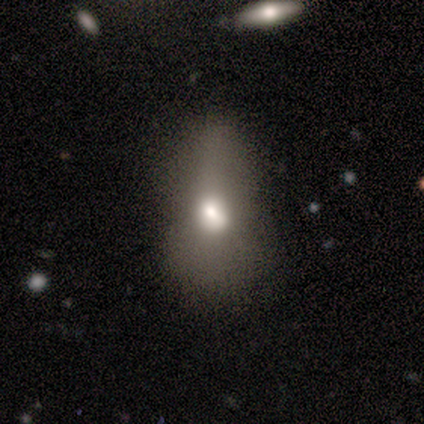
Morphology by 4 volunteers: This appears to be a featured or disk galaxy (75%) with no bar (100%), no spiral arms (100%) and a large central bulge (67%). Merging: minor disturbance (75%).